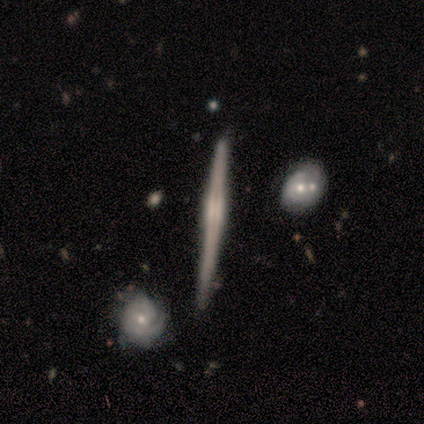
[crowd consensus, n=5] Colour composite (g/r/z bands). It shows a featured or disk galaxy (80%) viewed edge-on (75%) with a boxy central bulge (33%, tied with none and rounded). Merging: none (80%).